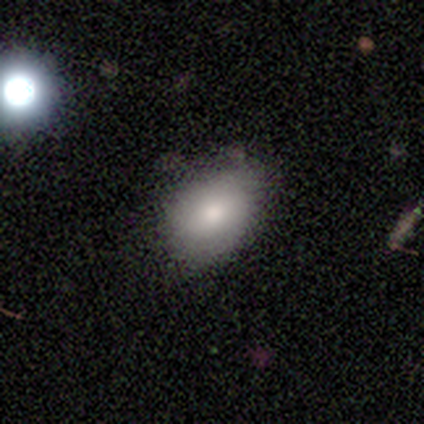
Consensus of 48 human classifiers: Smooth or featured: smooth — 77% (featured or disk — 17%)
How rounded: in between — 92% (round — 8%)
Merging: none — 64% (minor disturbance — 33%)